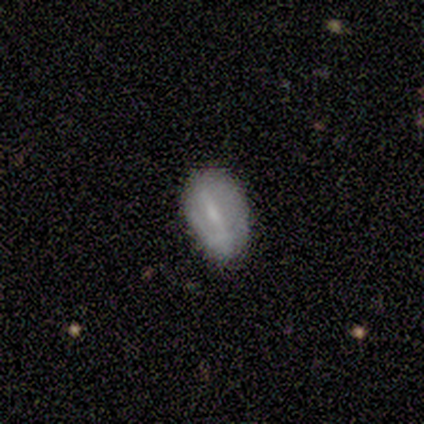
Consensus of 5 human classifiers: Smooth or featured? featured or disk (80%)
Edge-on disk? no (100%)
Bar? strong (50%, tied with weak)
Spiral arms? no (75%)
Bulge size? none (50%)
Merging? none (100%)